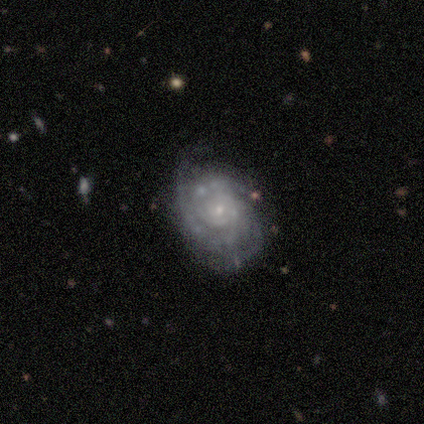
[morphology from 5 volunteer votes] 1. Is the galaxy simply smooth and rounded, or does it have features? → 100% featured or disk, 0% smooth, 0% star or artifact.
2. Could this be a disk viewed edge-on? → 100% no, 0% yes.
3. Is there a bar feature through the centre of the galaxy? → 100% no, 0% strong, 0% weak.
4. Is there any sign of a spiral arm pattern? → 100% yes, 0% no.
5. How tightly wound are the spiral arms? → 60% tight, 40% medium, 0% loose.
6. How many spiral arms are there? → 40% 3 (tied), 40% can't tell (tied), 20% 2, 0% 1, 0% 4, 0% more than 4.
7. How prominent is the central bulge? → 100% small, 0% dominant, 0% large, 0% moderate, 0% none.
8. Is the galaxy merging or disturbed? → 100% none, 0% minor disturbance, 0% major disturbance, 0% merger.